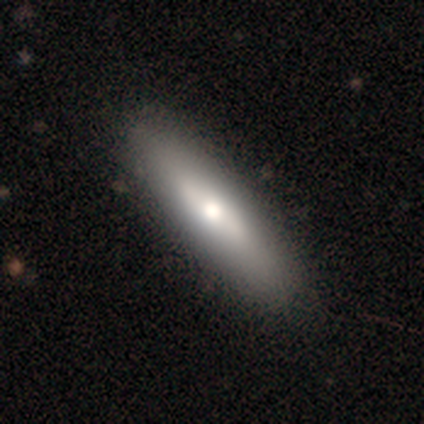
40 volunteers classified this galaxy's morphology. A smooth galaxy with no disk features (65%) that is cigar-shaped (73%).

Vote fractions:
- Smooth or featured? smooth: 65% / featured or disk: 32% / star or artifact: 2%
- How rounded? cigar-shaped: 73% / in between: 27% / round: 0%
- Merging? none: 49% / minor disturbance: 10% / major disturbance: 0% / merger: 0%